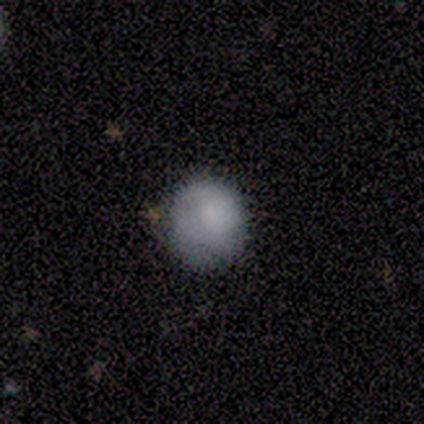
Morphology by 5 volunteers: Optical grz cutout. It shows a smooth galaxy with no disk features (80%) that is round (100%). Merging: none (60%).